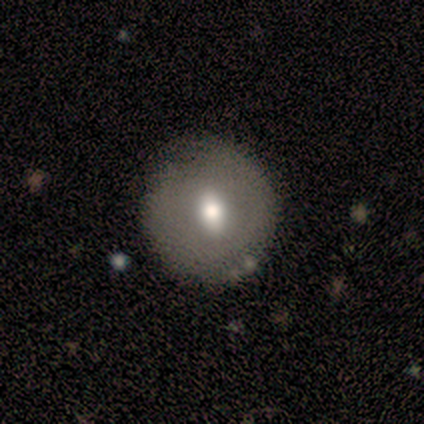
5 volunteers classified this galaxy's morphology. Q: Smooth or featured?
A: smooth (60%); runner-up: featured or disk (40%)
Q: How rounded?
A: round (100%)
Q: Merging?
A: none (80%); runner-up: minor disturbance (20%)